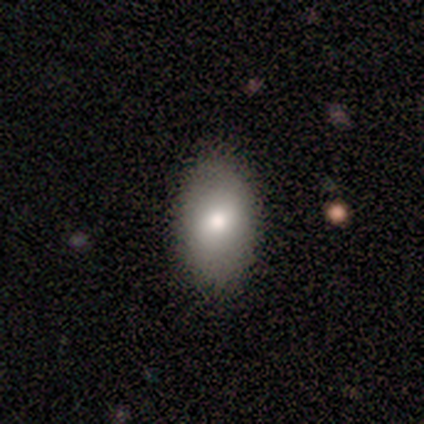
Morphology: type=smooth (100%); roundness=in between (80%); merging=none (100%).